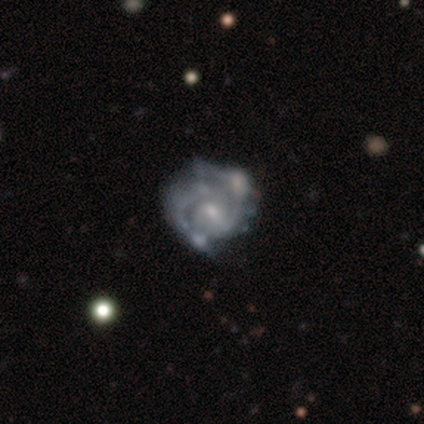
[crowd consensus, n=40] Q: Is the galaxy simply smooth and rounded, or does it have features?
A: featured or disk — 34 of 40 (85%).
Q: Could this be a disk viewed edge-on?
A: no — 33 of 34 (97%).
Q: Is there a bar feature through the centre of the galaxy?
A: no — 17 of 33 (52%).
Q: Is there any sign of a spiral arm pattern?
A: yes — 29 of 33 (88%).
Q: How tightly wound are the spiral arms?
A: medium — 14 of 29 (48%).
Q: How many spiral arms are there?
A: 2 — 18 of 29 (62%).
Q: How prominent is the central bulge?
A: small — 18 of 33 (55%).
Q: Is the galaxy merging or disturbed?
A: none — 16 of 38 (42%).